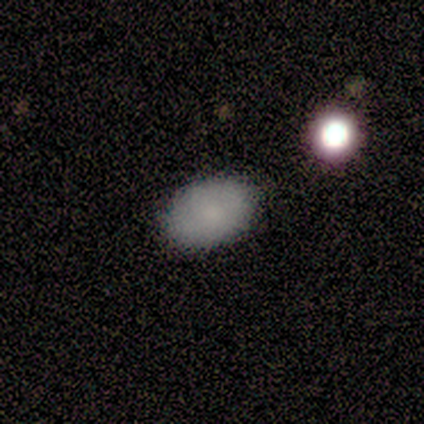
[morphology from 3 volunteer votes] A smooth galaxy with no disk features (100%) that is in between round and cigar-shaped (100%).

Vote fractions:
- Smooth or featured? smooth: 100% / featured or disk: 0% / star or artifact: 0%
- How rounded? in between: 100% / round: 0% / cigar-shaped: 0%
- Merging? none: 67% / minor disturbance: 33% / major disturbance: 0% / merger: 0%